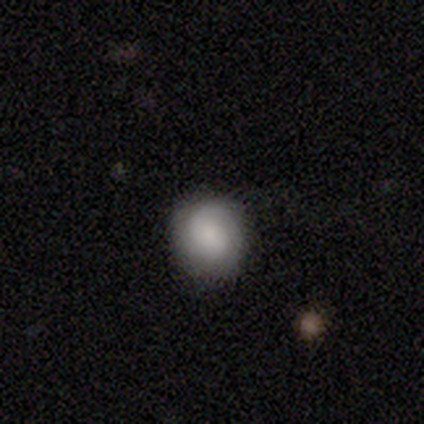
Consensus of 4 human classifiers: Smooth or featured? 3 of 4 (75%) said featured or disk. Edge-on disk? 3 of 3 (100%) said no. Bar? 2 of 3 (67%) said no. Spiral arms? 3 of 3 (100%) said yes. Spiral winding? 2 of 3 (67%) said tight. Spiral arm count? 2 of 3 (67%) said 2. Bulge size? 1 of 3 (33%, tied with moderate and small) said large. Merging? 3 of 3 (100%) said none.